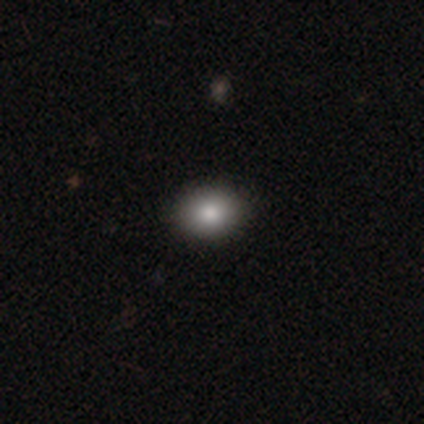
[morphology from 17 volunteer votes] smooth-or-featured: smooth: 88% | featured or disk: 6% | star or artifact: 6%
  how-rounded: in between: 67% | round: 33% | cigar-shaped: 0%
  merging: none: 94% | minor disturbance: 6% | major disturbance: 0% | merger: 0%